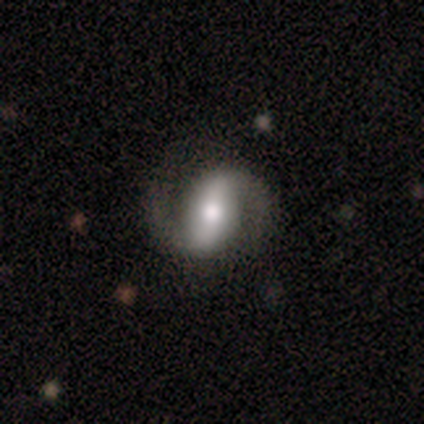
Smooth or featured? 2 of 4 (50%, tied with featured or disk) said smooth. How rounded? 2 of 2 (100%) said in between. Merging? 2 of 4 (50%, tied with minor disturbance) said none.